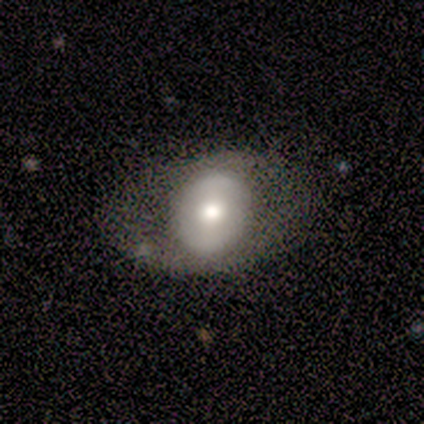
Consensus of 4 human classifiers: smooth 75%, featured or disk 25%, star or artifact 0%. Down the decision tree: how rounded — round (67%); merging — none (75%).